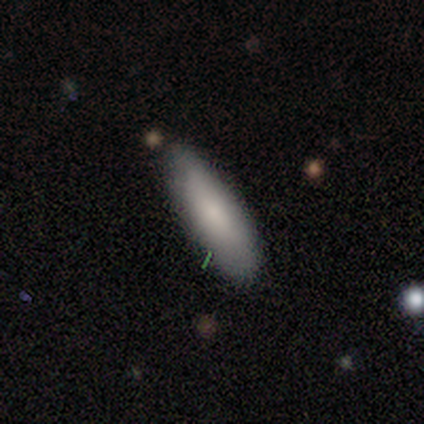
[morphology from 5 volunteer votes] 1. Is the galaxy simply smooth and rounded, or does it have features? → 80% smooth, 20% star or artifact, 0% featured or disk.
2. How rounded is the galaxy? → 100% in between, 0% round, 0% cigar-shaped.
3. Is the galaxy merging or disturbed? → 100% none, 0% minor disturbance, 0% major disturbance, 0% merger.